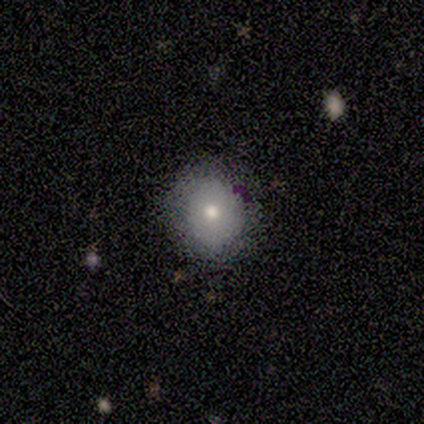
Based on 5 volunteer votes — smooth_or_featured: smooth (p=1.00)
how_rounded: round (p=1.00)
merging: none (p=0.80) [alt: minor disturbance p=0.20]